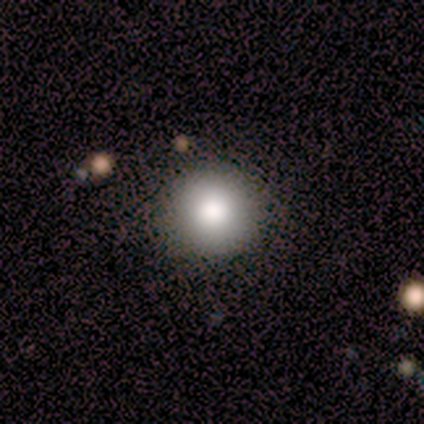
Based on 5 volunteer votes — smooth 80%, star or artifact 20%, featured or disk 0%. Down the decision tree: how rounded — round (75%); merging — none (100%).